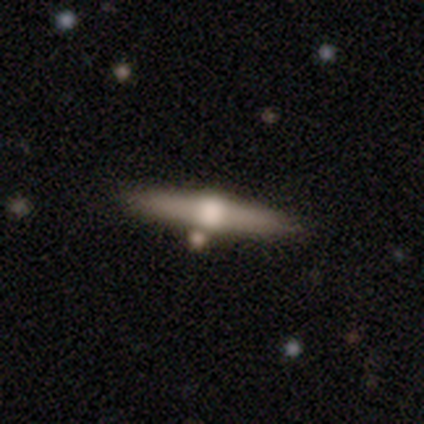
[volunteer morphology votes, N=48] smooth_or_featured: featured or disk (p=0.75) [alt: smooth p=0.17]
disk_edge_on: yes (p=0.97) [alt: no p=0.03]
edge_on_bulge: rounded (p=0.91) [alt: boxy p=0.09]
merging: none (p=0.86) [alt: minor disturbance p=0.07]